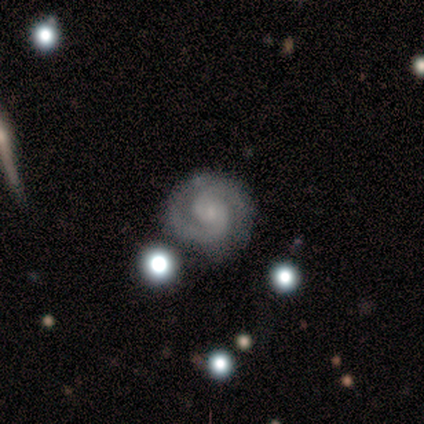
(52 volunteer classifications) Smooth or featured? 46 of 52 (88%) said featured or disk. Edge-on disk? 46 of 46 (100%) said no. Bar? 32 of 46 (70%) said no. Spiral arms? 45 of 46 (98%) said yes. Spiral winding? 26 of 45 (58%) said tight. Spiral arm count? 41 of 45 (91%) said 2. Bulge size? 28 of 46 (61%) said small. Merging? 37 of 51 (73%) said none.